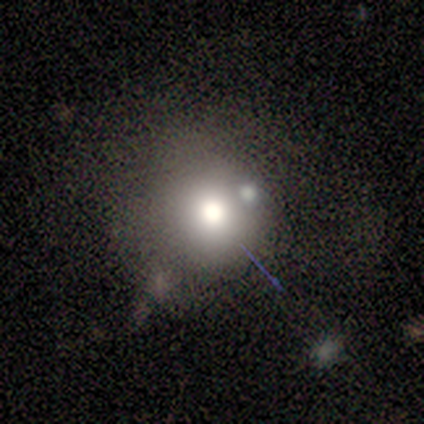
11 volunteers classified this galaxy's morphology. type=smooth (64%); roundness=round (100%); merging=none (62%).